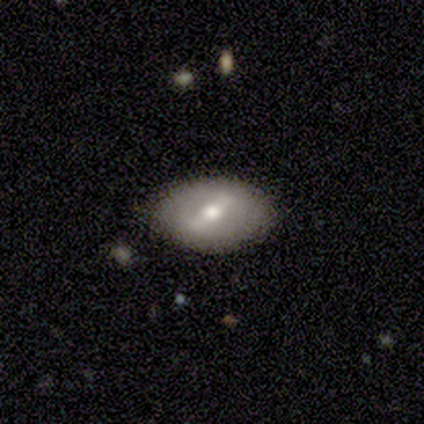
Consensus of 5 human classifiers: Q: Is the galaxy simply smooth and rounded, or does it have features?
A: smooth — 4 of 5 (80%).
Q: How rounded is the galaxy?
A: in between — 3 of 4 (75%).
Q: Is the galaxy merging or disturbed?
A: none — 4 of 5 (80%).